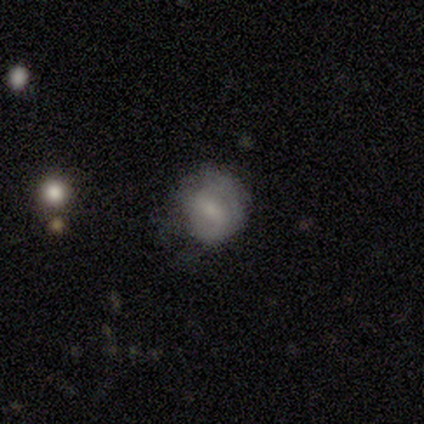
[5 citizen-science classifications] Smooth or featured: smooth — 60% (featured or disk — 20%)
How rounded: round — 67% (in between — 33%)
Merging: none — 50% (minor disturbance — 25%)